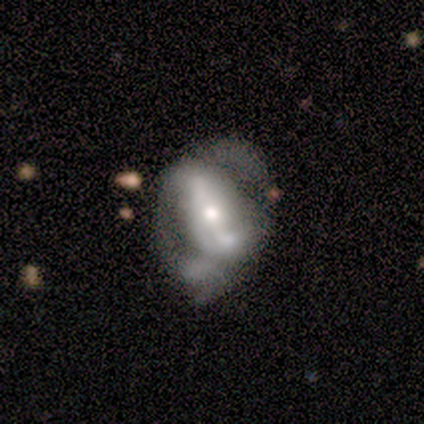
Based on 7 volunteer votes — A featured or disk galaxy (86%) with no bar (50%), 2 (100%) medium (100%) spiral arms (50%, tied with no) and a moderate central bulge (67%). Merging: none (57%).